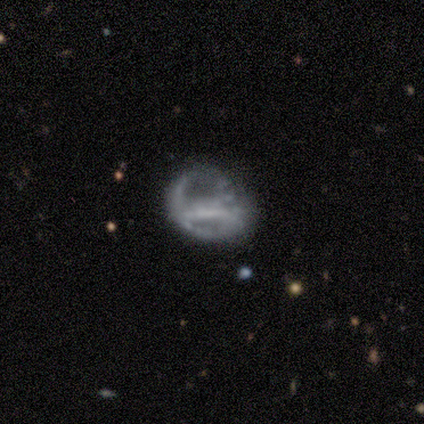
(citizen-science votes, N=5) This is clearly a featured or disk galaxy (100%). It is clearly not viewed edge-on (100%). Bar: marginally strong (40%, tied with no). Spiral arm pattern: clearly no (80%). Central bulge: likely small (60%). Merging: clearly major disturbance (80%).